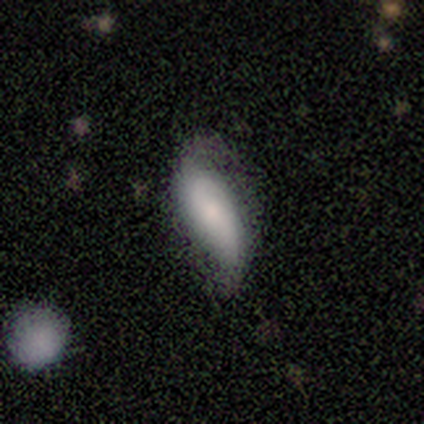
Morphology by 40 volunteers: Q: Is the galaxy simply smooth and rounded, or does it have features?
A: smooth — 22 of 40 (55%).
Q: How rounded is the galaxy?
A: in between — 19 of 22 (86%).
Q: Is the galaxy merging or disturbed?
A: none — 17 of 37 (46%, tied with minor disturbance).